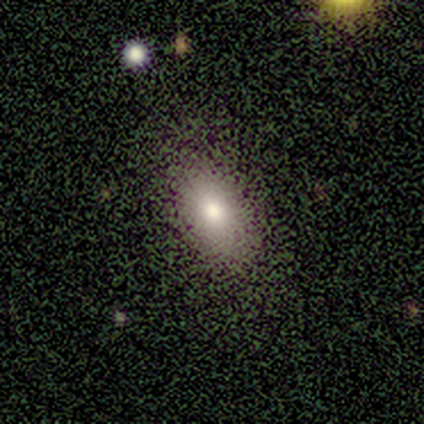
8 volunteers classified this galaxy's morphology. type=smooth (62%); roundness=in between (100%); merging=none (75%).